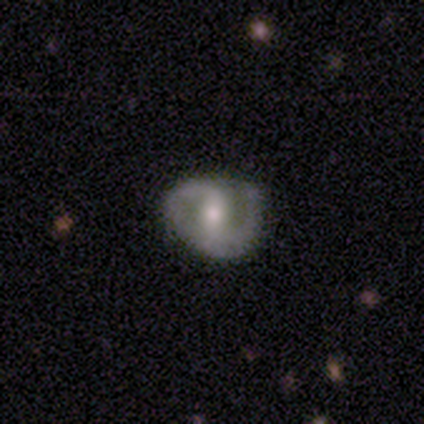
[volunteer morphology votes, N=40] type=featured or disk (98%); edge-on=no (100%); bar=weak (51%); spiral arms=yes (100%); winding=medium (59%); arm count=2 (90%); bulge=moderate (64%); merging=none (62%).